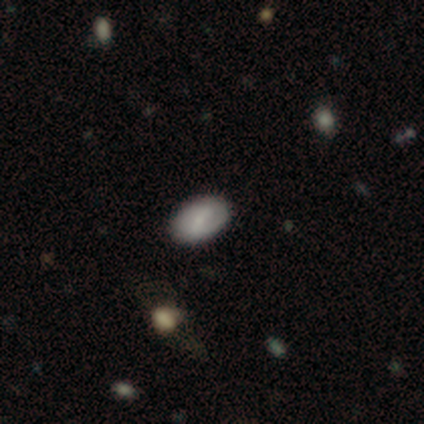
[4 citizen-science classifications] Overall: smooth (75%). How rounded: in between (100%). Merging: none (100%).